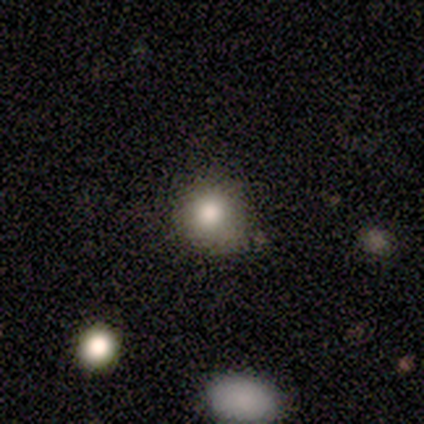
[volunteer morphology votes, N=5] This appears to be a smooth galaxy with no disk features (100%) that is round (80%). Merging: none (80%).